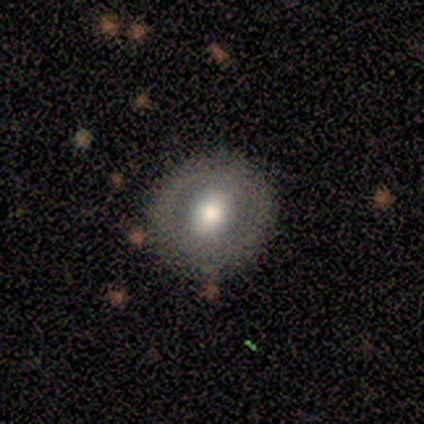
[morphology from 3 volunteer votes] This appears to be a featured or disk galaxy (100%) with a strong bar (33%, tied with weak and no), no spiral arms (67%) and a moderate central bulge (100%). Merging: none (100%).